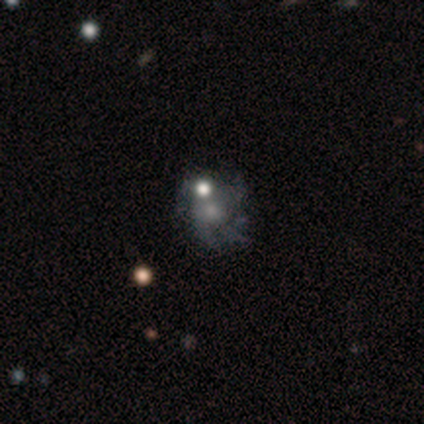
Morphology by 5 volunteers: This is marginally a smooth galaxy (40%, tied with featured or disk). How rounded: clearly in between (100%). Merging: likely major disturbance (75%).